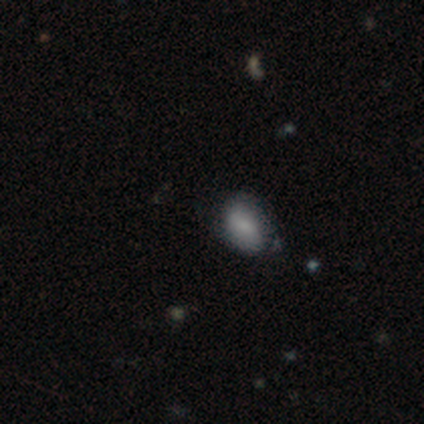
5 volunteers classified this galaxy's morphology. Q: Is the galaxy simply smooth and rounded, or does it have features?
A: smooth — 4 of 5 (80%).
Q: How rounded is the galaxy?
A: in between — 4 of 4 (100%).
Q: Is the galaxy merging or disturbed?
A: none — 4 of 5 (80%).